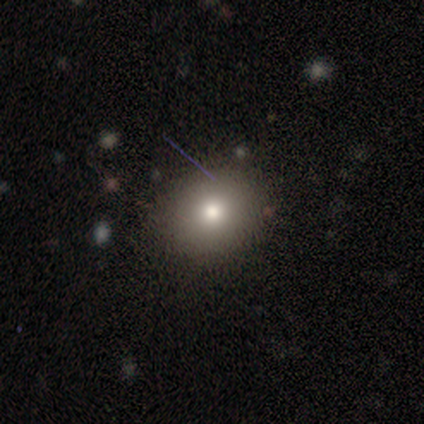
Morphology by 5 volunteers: smooth-or-featured: smooth: 60% | star or artifact: 40% | featured or disk: 0%
  how-rounded: in between: 67% | round: 33% | cigar-shaped: 0%
  merging: none: 100% | minor disturbance: 0% | major disturbance: 0% | merger: 0%